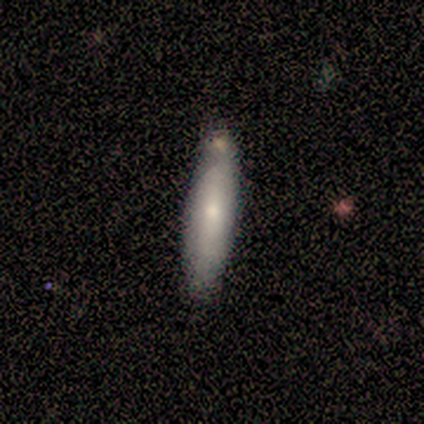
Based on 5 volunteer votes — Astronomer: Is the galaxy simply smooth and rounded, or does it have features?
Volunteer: smooth — 60% (runner-up: featured or disk, 40%).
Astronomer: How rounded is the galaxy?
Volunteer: cigar-shaped — 67%.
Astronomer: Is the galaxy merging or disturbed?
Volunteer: none — 80%.